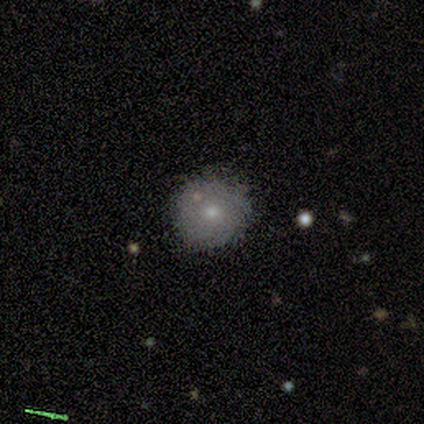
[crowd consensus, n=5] Volunteers were most divided on "smooth or featured": smooth: 80%, featured or disk: 20%, star or artifact: 0%. More confident: how rounded — round (100%); merging — none (80%).